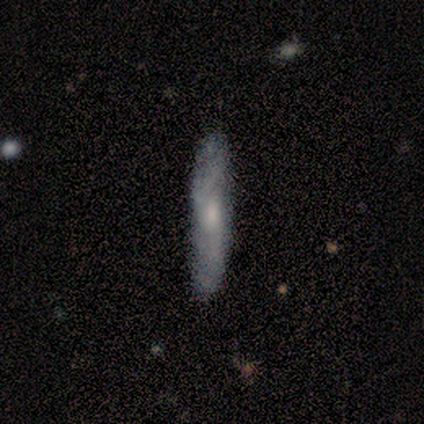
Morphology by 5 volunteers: Smooth or featured? 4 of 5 (80%) said smooth. How rounded? 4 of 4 (100%) said cigar-shaped. Merging? 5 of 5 (100%) said none.